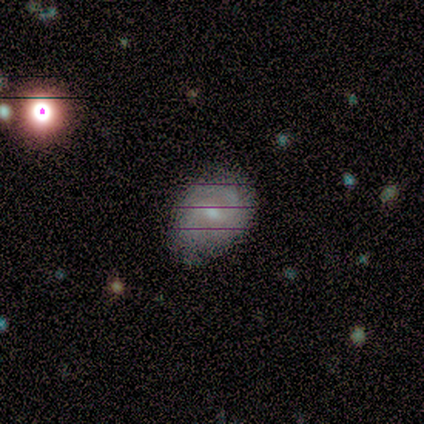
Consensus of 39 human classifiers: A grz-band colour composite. It shows a featured or disk galaxy (62%) with a weak bar (62%), 2 (89%) medium (67%) spiral arms (75%) and a moderate central bulge (54%). Merging: none (83%).